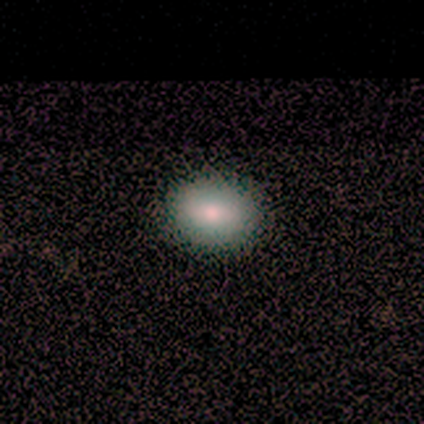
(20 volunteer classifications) Smooth or featured? 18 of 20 (90%) said smooth. How rounded? 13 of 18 (72%) said in between. Merging? 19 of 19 (100%) said none.